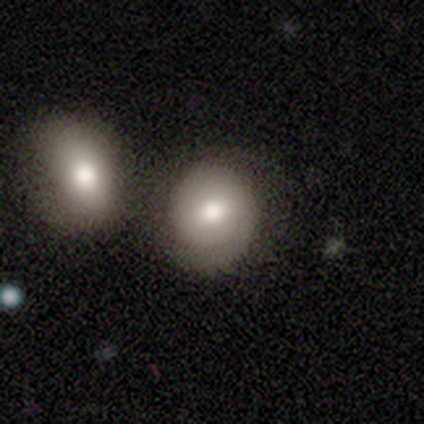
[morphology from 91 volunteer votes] Smooth or featured? smooth (77%)
How rounded? round (80%)
Merging? none (50%)